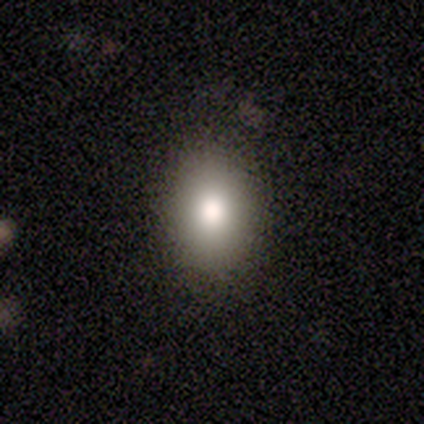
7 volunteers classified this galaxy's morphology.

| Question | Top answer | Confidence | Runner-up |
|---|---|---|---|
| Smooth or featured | smooth | 86% | featured or disk (14%) |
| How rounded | in between | 67% | round (33%) |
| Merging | none | 100% | — |